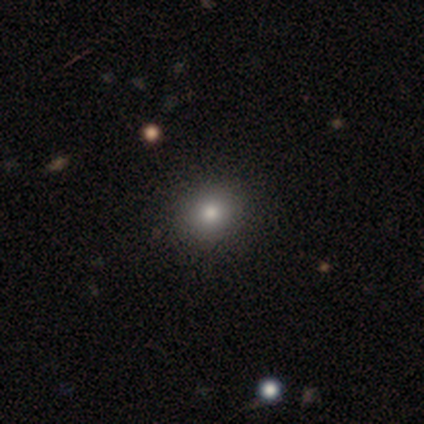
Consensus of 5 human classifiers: Q: Smooth or featured?
A: smooth (80%); runner-up: star or artifact (20%)
Q: How rounded?
A: round (75%); runner-up: in between (25%)
Q: Merging?
A: none (100%)